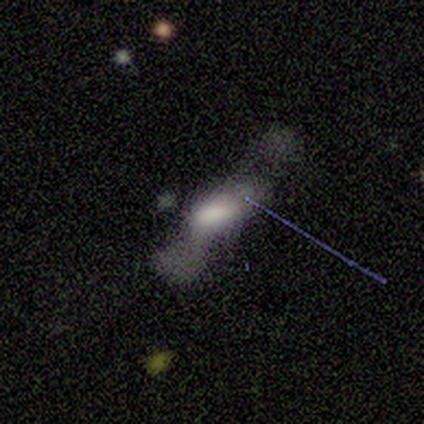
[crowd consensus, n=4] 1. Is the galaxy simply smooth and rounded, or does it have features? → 50% featured or disk, 25% smooth, 25% star or artifact.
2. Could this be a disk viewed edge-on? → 50% yes (tied), 50% no (tied).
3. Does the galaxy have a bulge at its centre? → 100% rounded, 0% boxy, 0% none.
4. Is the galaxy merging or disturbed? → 67% major disturbance, 33% minor disturbance, 0% none, 0% merger.